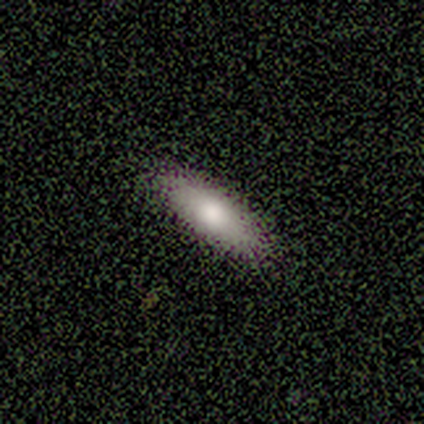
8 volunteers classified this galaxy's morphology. smooth_or_featured: smooth (p=0.62) [alt: featured or disk p=0.25]
how_rounded: in between (p=0.60) [alt: cigar-shaped p=0.40]
merging: none (p=1.00)